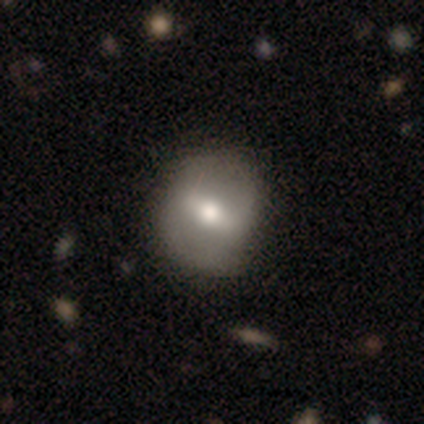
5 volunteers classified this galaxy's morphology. This appears to be a featured or disk galaxy (80%) with a strong bar (50%, tied with weak), no spiral arms (100%) and a moderate central bulge (100%). Merging: none (60%).